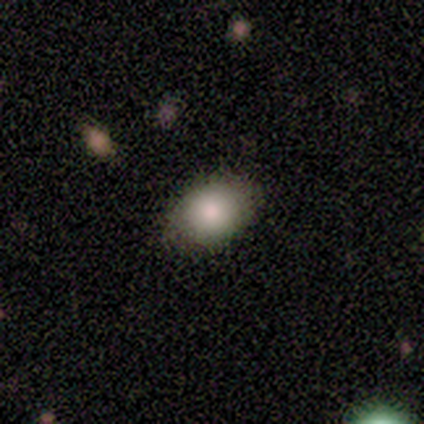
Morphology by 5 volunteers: A smooth galaxy with no disk features (80%) that is round (50%, tied with in between).

Vote fractions:
- Smooth or featured? smooth: 80% / featured or disk: 20% / star or artifact: 0%
- How rounded? round: 50% (tied) / in between: 50% (tied) / cigar-shaped: 0%
- Merging? none: 100% / minor disturbance: 0% / major disturbance: 0% / merger: 0%